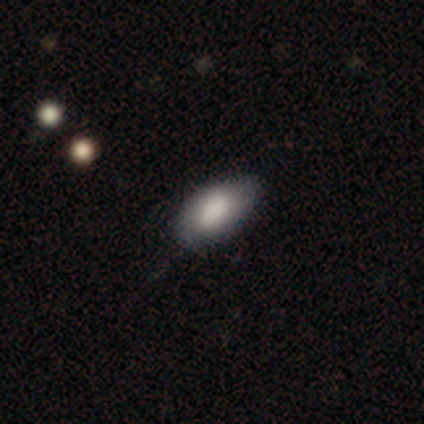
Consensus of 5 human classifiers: Overall: smooth (60%; featured or disk 40%). How rounded: in between (100%). Merging: none (60%; minor disturbance 40%).